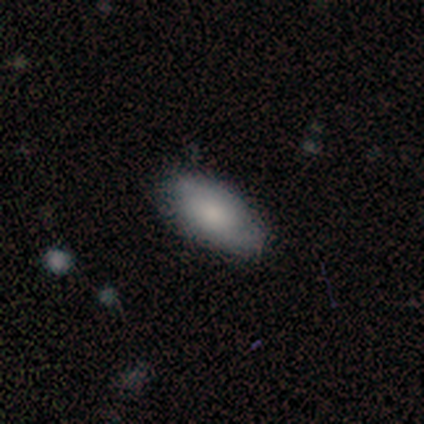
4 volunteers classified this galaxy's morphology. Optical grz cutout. It shows a smooth galaxy with no disk features (100%) that is in between round and cigar-shaped (100%). Merging: none (50%, tied with minor disturbance).